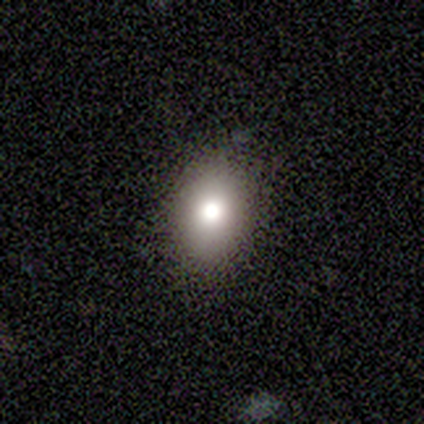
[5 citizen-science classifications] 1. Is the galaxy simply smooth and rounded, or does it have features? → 80% smooth, 20% star or artifact, 0% featured or disk.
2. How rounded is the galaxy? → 75% in between, 25% round, 0% cigar-shaped.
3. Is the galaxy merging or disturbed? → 100% none, 0% minor disturbance, 0% major disturbance, 0% merger.